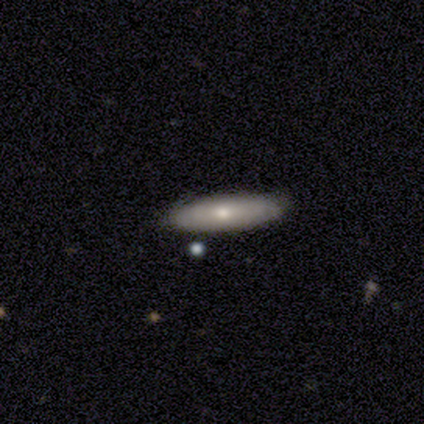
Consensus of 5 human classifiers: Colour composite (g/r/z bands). It shows a featured or disk galaxy (60%) with no bar (100%), no spiral arms (100%) and a moderate central bulge (50%, tied with small). Merging: none (100%).